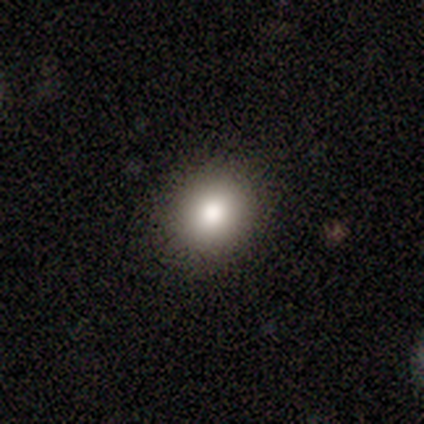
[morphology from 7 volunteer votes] smooth_or_featured: smooth (p=0.57) [alt: featured or disk p=0.29]
how_rounded: in between (p=0.75) [alt: round p=0.25]
merging: none (p=1.00)